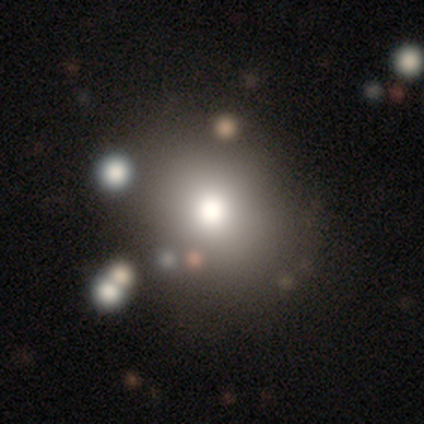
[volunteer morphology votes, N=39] Volunteers were most divided on "smooth or featured": smooth: 49%, star or artifact: 31%, featured or disk: 21%. More confident: how rounded — round (79%); merging — none (67%).